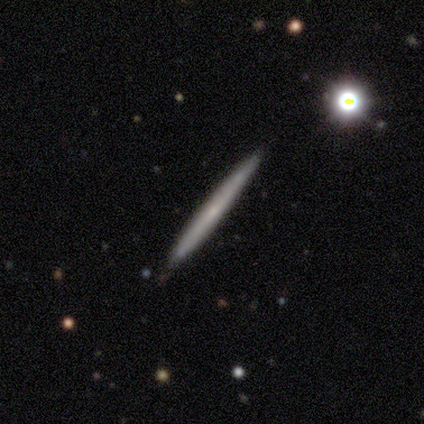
smooth 60%, featured or disk 40%, star or artifact 0%. Down the decision tree: how rounded — cigar-shaped (100%); merging — none (100%).